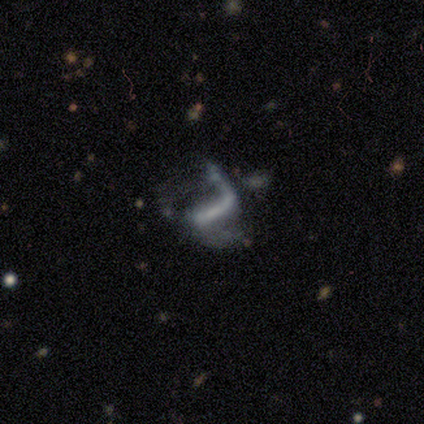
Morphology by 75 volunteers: A featured or disk galaxy (81%) with a strong bar (68%), 2 (79%) loose (85%) spiral arms (80%) and no central bulge (50%). Merging: major disturbance (49%).